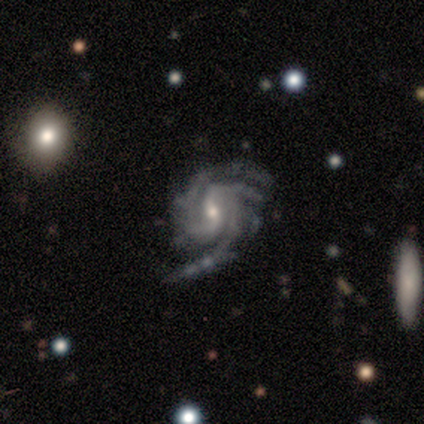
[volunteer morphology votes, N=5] smooth-or-featured: featured or disk: 80% | star or artifact: 20% | smooth: 0%
  disk-edge-on: no: 100% | yes: 0%
    bar: no: 75% | weak: 25% | strong: 0%
    has-spiral-arms: yes: 100% | no: 0%
      spiral-winding: tight: 75% | medium: 25% | loose: 0%
      spiral-arm-count: 1: 25% (tied) | 3: 25% (tied) | 4: 25% (tied) | can't tell: 25% (tied) | 2: 0% | more than 4: 0%
    bulge-size: moderate: 50% (tied) | small: 50% (tied) | dominant: 0% | large: 0% | none: 0%
  merging: none: 50% (tied) | major disturbance: 50% (tied) | minor disturbance: 0% | merger: 0%